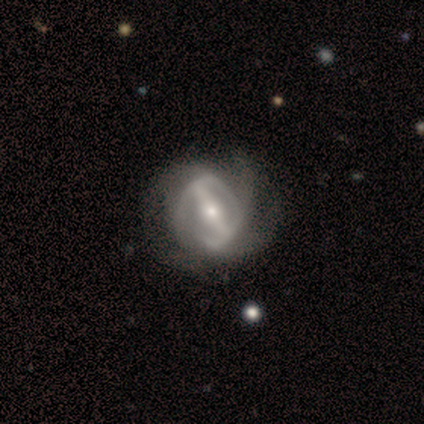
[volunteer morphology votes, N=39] Smooth or featured: featured or disk — 82% (smooth — 15%)
Edge-on disk: no — 97% (yes — 3%)
Bar: strong — 77% (weak — 16%)
Spiral arms: yes — 87% (no — 13%)
Spiral winding: medium — 37% (tied with loose — 37%)
Spiral arm count: can't tell — 37% (2 — 26%)
Bulge size: moderate — 58% (small — 26%)
Merging: none — 45% (minor disturbance — 29%)